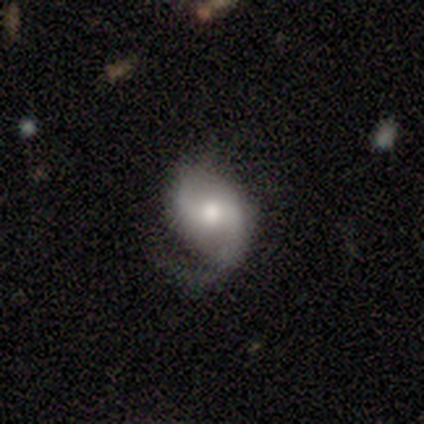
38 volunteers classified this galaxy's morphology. featured or disk 79%, smooth 18%, star or artifact 3%. Down the decision tree: edge-on disk — no (100%); bar — weak (53%); spiral arms — yes (90%); spiral arm count — 2 (70%); spiral winding — loose (59%); bulge size — moderate (67%); merging — none (43%).